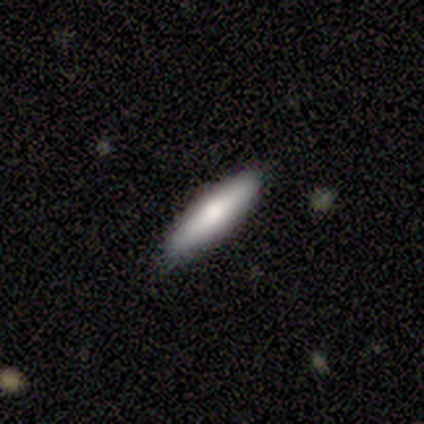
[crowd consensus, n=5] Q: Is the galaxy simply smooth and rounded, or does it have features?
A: smooth — 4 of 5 (80%).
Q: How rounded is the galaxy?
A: cigar-shaped — 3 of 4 (75%).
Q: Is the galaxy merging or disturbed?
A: none — 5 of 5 (100%).